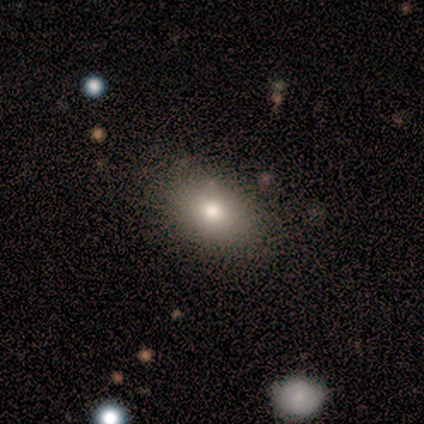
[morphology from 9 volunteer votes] featured or disk 56%, smooth 33%, star or artifact 11%. Down the decision tree: edge-on disk — no (100%); bar — no (100%); spiral arms — no (100%); bulge size — moderate (60%); merging — none (88%).